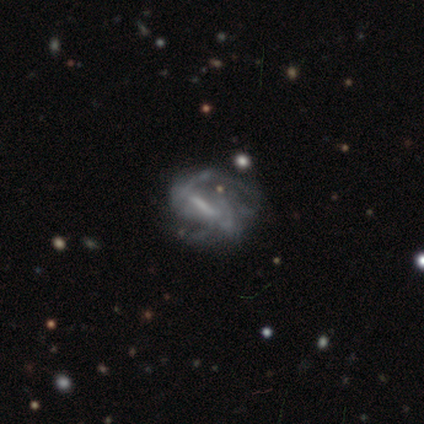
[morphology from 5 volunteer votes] Volunteers were most divided on "spiral winding" (2-way tie): medium: 40%, loose: 40%, tight: 20%; "spiral arm count" (2-way tie): 2: 40%, can't tell: 40%, 3: 20%, 1: 0%, 4: 0%, more than 4: 0%. More confident: smooth or featured — featured or disk (100%); edge-on disk — no (100%); spiral arms — yes (100%); bulge size — none (80%); bar — strong (60%); merging — none (60%).